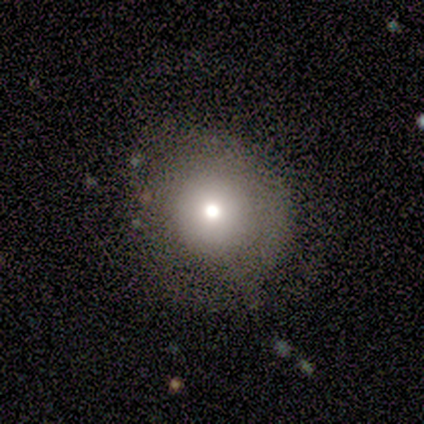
Smooth or featured? 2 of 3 (67%) said smooth. How rounded? 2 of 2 (100%) said round. Merging? 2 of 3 (67%) said none.